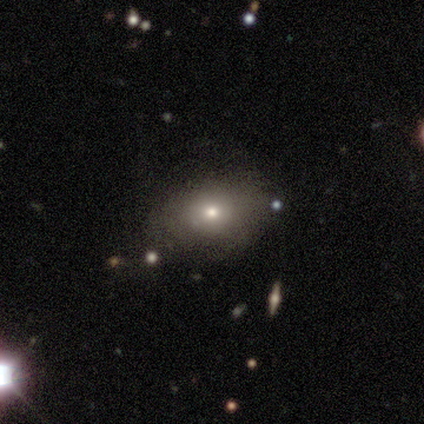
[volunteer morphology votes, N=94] This appears to be a smooth galaxy with no disk features (69%) that is in between round and cigar-shaped (68%). Merging: none (78%).